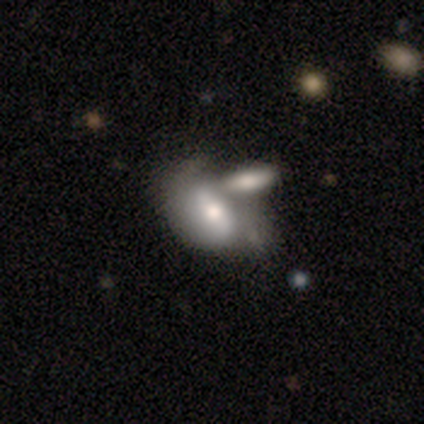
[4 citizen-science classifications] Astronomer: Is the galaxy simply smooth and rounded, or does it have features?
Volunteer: featured or disk — 100%.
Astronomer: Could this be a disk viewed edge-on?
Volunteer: no — 100%.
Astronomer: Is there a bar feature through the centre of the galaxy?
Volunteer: weak — 50%.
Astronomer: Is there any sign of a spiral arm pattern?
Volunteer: no — 75%.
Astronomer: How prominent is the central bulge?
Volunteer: large — 50%.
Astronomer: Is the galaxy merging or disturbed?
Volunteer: merger — 75%.